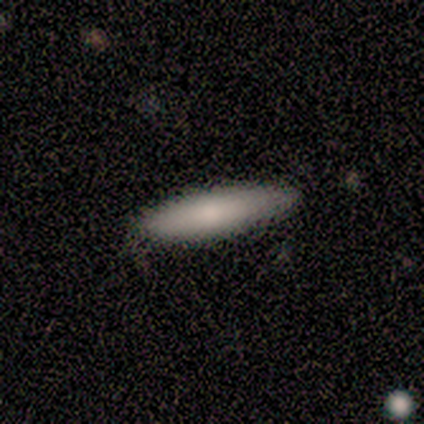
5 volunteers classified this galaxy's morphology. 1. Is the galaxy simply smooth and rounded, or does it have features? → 80% smooth, 20% featured or disk, 0% star or artifact.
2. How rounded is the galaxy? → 50% in between (tied), 50% cigar-shaped (tied), 0% round.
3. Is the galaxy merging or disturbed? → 80% none, 20% minor disturbance, 0% major disturbance, 0% merger.